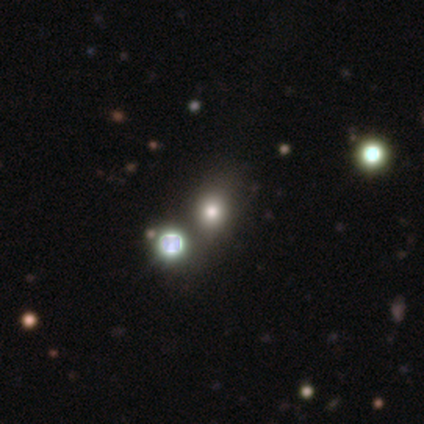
Smooth or featured? star or artifact (60%)